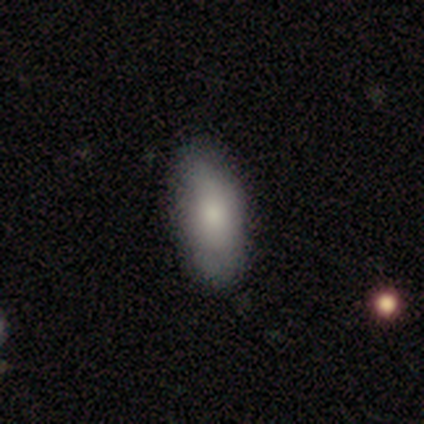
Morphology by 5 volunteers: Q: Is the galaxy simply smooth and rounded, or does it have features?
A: smooth — 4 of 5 (80%).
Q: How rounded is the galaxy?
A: in between — 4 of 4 (100%).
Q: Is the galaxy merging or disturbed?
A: none — 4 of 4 (100%).